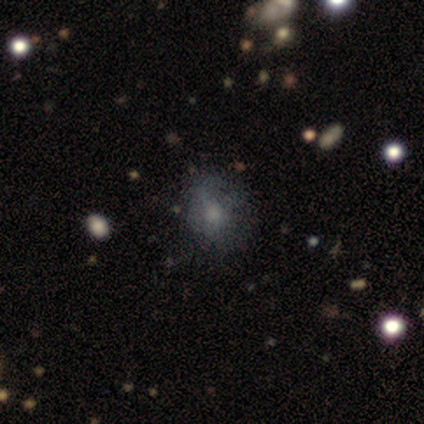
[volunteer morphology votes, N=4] This appears to be a smooth galaxy with no disk features (75%) that is round (67%). Merging: none (50%).